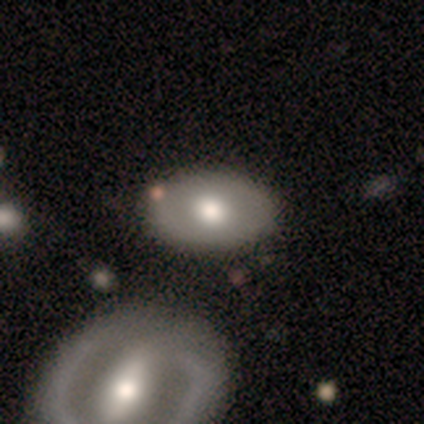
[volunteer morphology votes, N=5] type=smooth (40%, tied with featured or disk); roundness=round (50%, tied with in between); merging=none (50%, tied with merger).